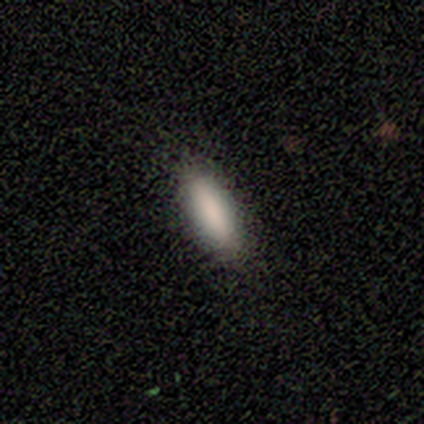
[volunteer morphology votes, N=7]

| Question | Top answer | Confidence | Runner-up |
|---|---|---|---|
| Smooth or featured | smooth | 100% | — |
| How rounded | cigar-shaped | 57% | in between (43%) |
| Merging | none | 86% | minor disturbance (14%) |